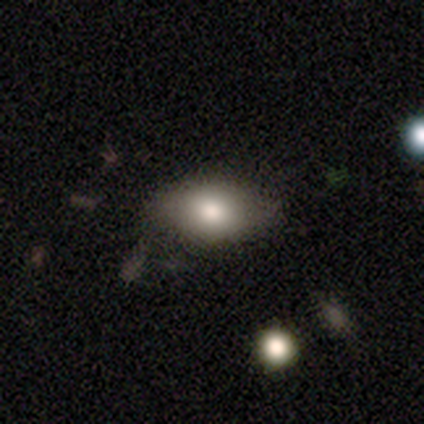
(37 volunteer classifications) This appears to be a smooth galaxy with no disk features (84%) that is in between round and cigar-shaped (94%). Merging: none (56%).